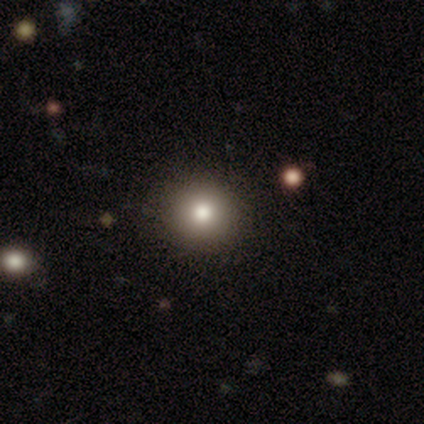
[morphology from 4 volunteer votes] Smooth or featured?
  - smooth: 75% *
  - star or artifact: 25%
  - featured or disk: 0%
How rounded?
  - round: 67% *
  - in between: 33%
  - cigar-shaped: 0%
Merging?
  - none: 67% *
  - minor disturbance: 33%
  - major disturbance: 0%
  - merger: 0%